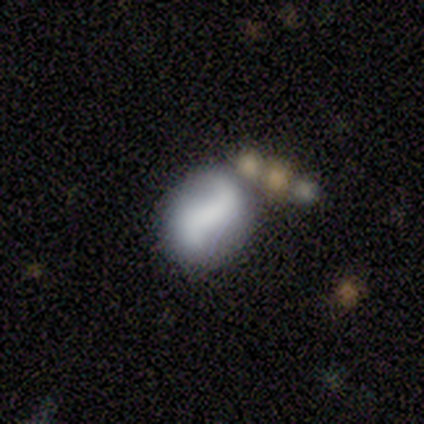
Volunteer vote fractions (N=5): A featured or disk galaxy (60%) with no bar (67%), 2 (100%) loose (100%) spiral arms (67%) and a large central bulge (33%, tied with small and none).

Vote fractions:
- Smooth or featured? featured or disk: 60% / smooth: 40% / star or artifact: 0%
- Edge-on disk? no: 100% / yes: 0%
- Bar? no: 67% / strong: 33% / weak: 0%
- Spiral arms? yes: 67% / no: 33%
- Spiral winding? loose: 100% / tight: 0% / medium: 0%
- Spiral arm count? 2: 100% / 1: 0% / 3: 0% / 4: 0% / more than 4: 0% / can't tell: 0%
- Bulge size? large: 33% (tied) / small: 33% (tied) / none: 33% (tied) / dominant: 0% / moderate: 0%
- Merging? none: 60% / minor disturbance: 40% / major disturbance: 0% / merger: 0%